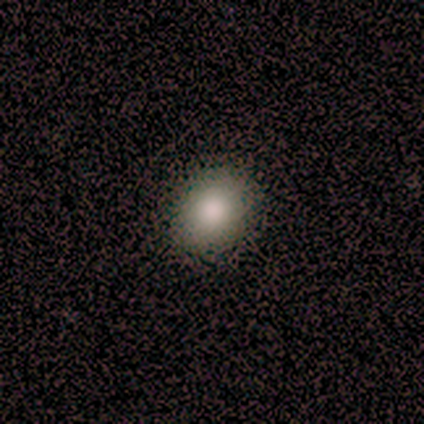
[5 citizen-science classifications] Overall: smooth (80%). How rounded: round (50%, tied with in between). Merging: none (100%).